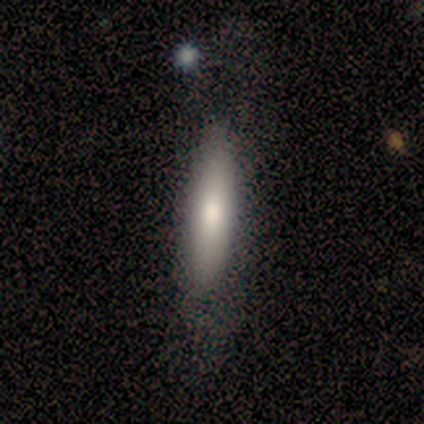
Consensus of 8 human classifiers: A smooth galaxy with no disk features (62%) that is cigar-shaped (80%). Merging: none (71%).